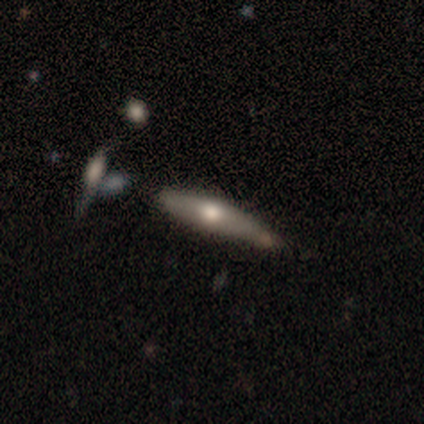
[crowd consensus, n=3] smooth-or-featured: featured or disk: 67% | smooth: 33% | star or artifact: 0%
  disk-edge-on: yes: 100% | no: 0%
    edge-on-bulge: boxy: 50% (tied) | rounded: 50% (tied) | none: 0%
  merging: none: 67% | merger: 33% | minor disturbance: 0% | major disturbance: 0%